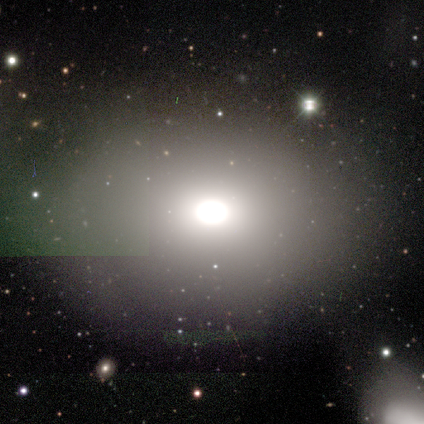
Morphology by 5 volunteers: smooth-or-featured: star or artifact: 60% | smooth: 40% | featured or disk: 0%